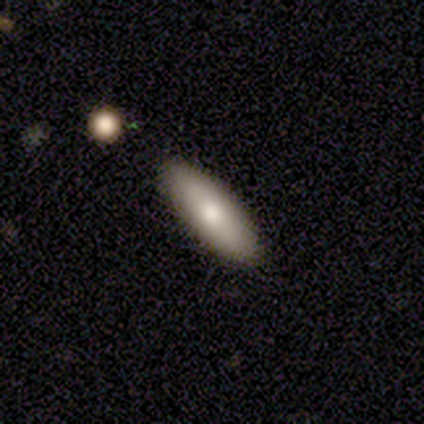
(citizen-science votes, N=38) smooth_or_featured: smooth (p=0.71) [alt: featured or disk p=0.24]
how_rounded: in between (p=0.59) [alt: cigar-shaped p=0.41]
merging: none (p=0.94) [alt: minor disturbance p=0.06]